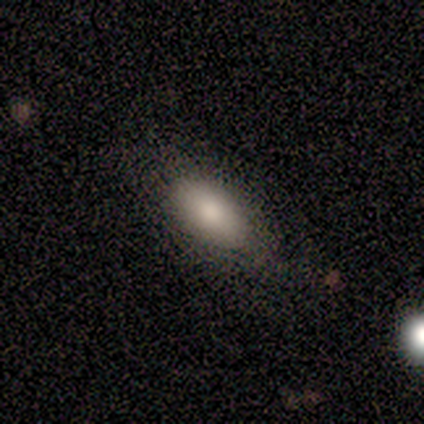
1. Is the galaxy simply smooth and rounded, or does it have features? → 88% smooth, 8% featured or disk, 5% star or artifact.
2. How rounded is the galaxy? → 94% in between, 6% cigar-shaped, 0% round.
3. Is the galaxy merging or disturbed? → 47% none, 8% minor disturbance, 5% major disturbance, 0% merger.